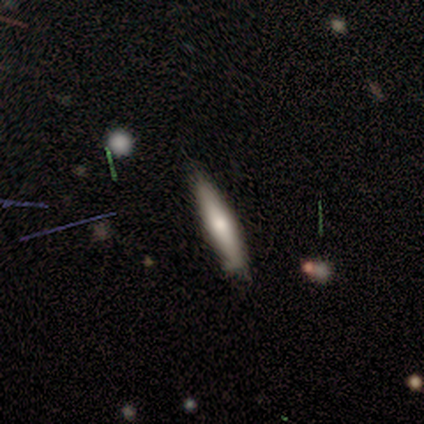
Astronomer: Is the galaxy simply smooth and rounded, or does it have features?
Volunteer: smooth — 75%.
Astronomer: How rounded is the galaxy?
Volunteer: cigar-shaped — 67%.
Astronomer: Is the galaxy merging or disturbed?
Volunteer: none — 100%.